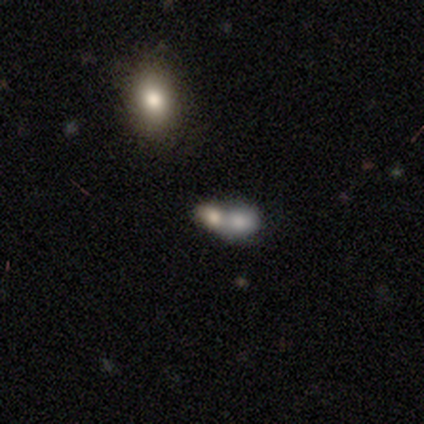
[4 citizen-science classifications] This is possibly a smooth galaxy (50%, tied with featured or disk). How rounded: clearly in between (100%). Merging: likely merger (75%).